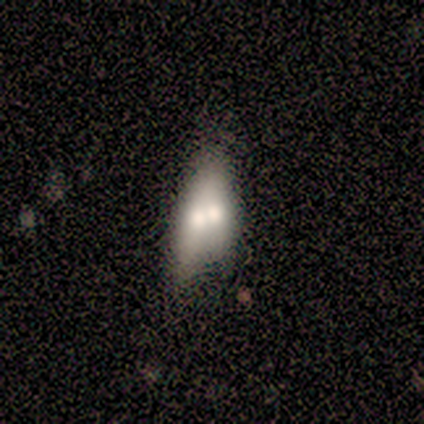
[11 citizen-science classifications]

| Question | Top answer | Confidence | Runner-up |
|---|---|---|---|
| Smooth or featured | smooth | 73% | featured or disk (27%) |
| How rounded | in between | 62% | cigar-shaped (38%) |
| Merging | merger | 55% | minor disturbance (18%) |